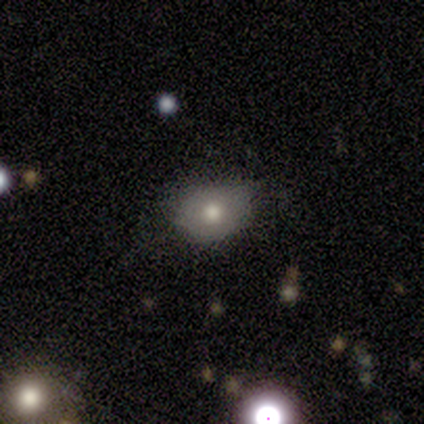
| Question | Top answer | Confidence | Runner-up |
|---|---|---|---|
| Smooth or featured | smooth | 79% | star or artifact (11%) |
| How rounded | in between | 59% | round (41%) |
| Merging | none | 72% | minor disturbance (22%) |